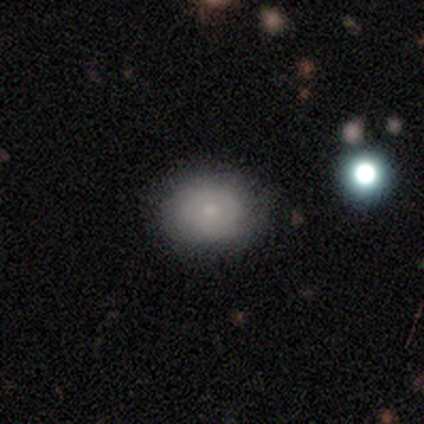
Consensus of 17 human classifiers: A smooth galaxy with no disk features (71%) that is round (58%). Merging: none (100%).